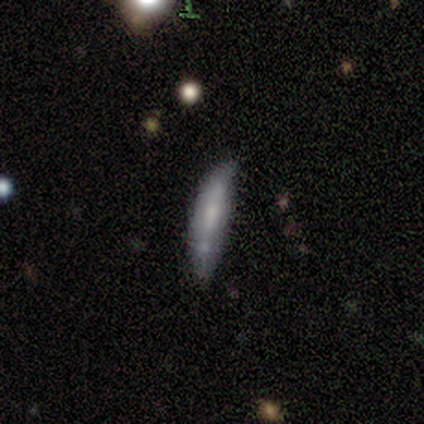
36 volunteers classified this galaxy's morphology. A smooth galaxy with no disk features (50%) that is cigar-shaped (78%).

Vote fractions:
- Smooth or featured? smooth: 50% / featured or disk: 44% / star or artifact: 6%
- How rounded? cigar-shaped: 78% / in between: 22% / round: 0%
- Merging? none: 56% / minor disturbance: 29% / merger: 9% / major disturbance: 6%